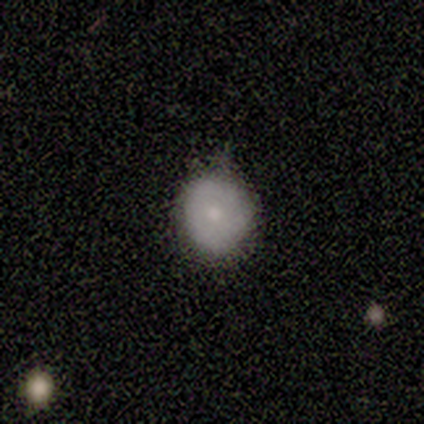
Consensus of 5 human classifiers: Overall: smooth (100%). How rounded: round (100%). Merging: none (60%; minor disturbance 40%).